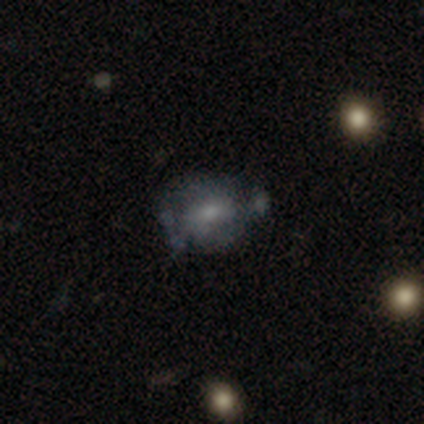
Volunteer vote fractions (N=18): Smooth or featured: featured or disk — 56% (smooth — 39%)
Edge-on disk: no — 90% (yes — 10%)
Bar: no — 100%
Spiral arms: no — 78% (yes — 22%)
Bulge size: small — 56% (moderate — 33%)
Merging: minor disturbance — 47% (none — 24%)